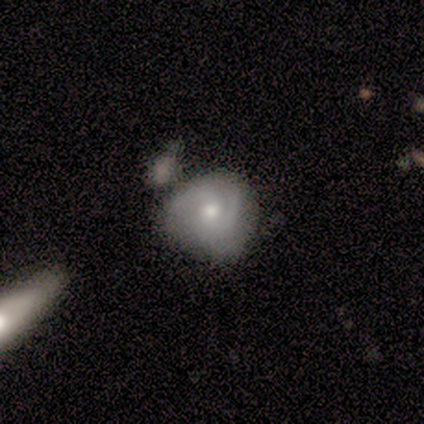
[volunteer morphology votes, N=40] A featured or disk galaxy (57%) with no bar (77%), 2 (47%) tight (58%) spiral arms (86%) and a moderate central bulge (68%). Merging: none (29%, tied with merger).